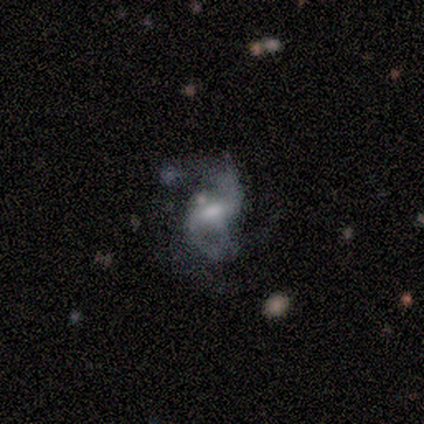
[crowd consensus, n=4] Smooth or featured? 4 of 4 (100%) said featured or disk. Edge-on disk? 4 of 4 (100%) said no. Bar? 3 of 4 (75%) said weak. Spiral arms? 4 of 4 (100%) said yes. Spiral winding? 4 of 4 (100%) said medium. Spiral arm count? 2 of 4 (50%) said 2. Bulge size? 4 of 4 (100%) said moderate. Merging? 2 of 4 (50%) said major disturbance.